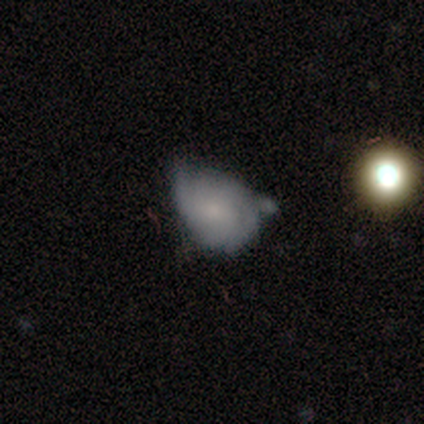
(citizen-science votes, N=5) Volunteers were most divided on "spiral winding" (2-way tie): tight: 50%, loose: 50%, medium: 0%; "spiral arm count" (2-way tie): 2: 50%, can't tell: 50%, 1: 0%, 3: 0%, 4: 0%, more than 4: 0%. More confident: edge-on disk — no (100%); merging — minor disturbance (100%); bar — weak (67%); spiral arms — yes (67%); bulge size — moderate (67%); smooth or featured — featured or disk (60%).